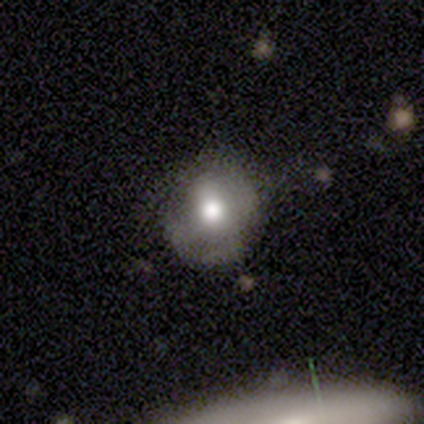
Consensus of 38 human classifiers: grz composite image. It shows a smooth galaxy with no disk features (71%) that is round (89%). Merging: none (74%).